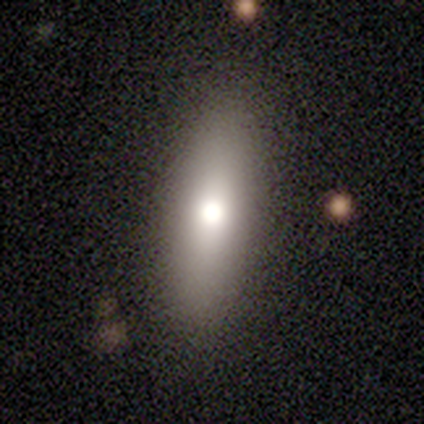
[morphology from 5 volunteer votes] Volunteers were most divided on "how rounded": cigar-shaped: 50%, round: 25%, in between: 25%. More confident: merging — none (100%); smooth or featured — smooth (80%).